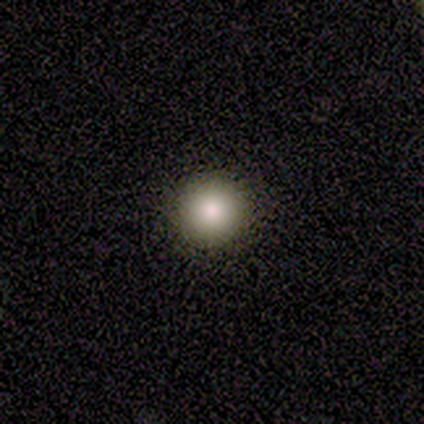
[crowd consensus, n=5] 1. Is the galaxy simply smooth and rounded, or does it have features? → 80% smooth, 20% star or artifact, 0% featured or disk.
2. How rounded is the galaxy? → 75% in between, 25% round, 0% cigar-shaped.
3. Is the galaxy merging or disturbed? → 100% none, 0% minor disturbance, 0% major disturbance, 0% merger.